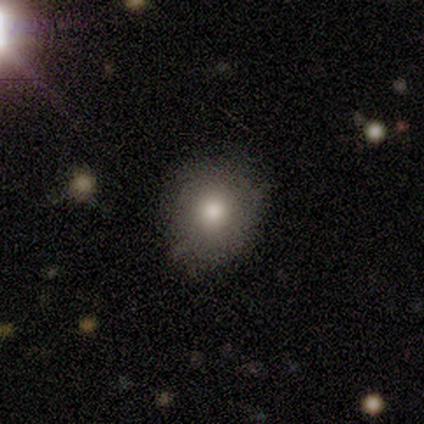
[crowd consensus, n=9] Smooth or featured: smooth — 100%
How rounded: round — 100%
Merging: none — 100%